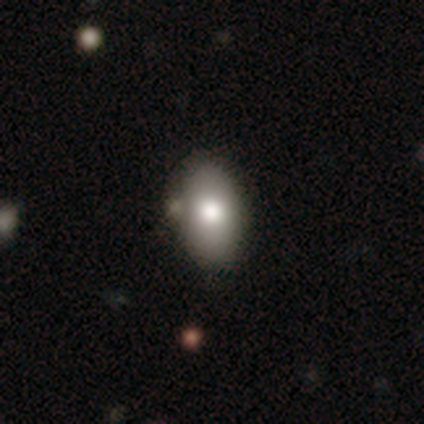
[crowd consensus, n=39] smooth-or-featured: smooth: 77% | featured or disk: 18% | star or artifact: 5%
  how-rounded: in between: 90% | round: 7% | cigar-shaped: 3%
  merging: none: 49% | minor disturbance: 16% | merger: 14% | major disturbance: 0%